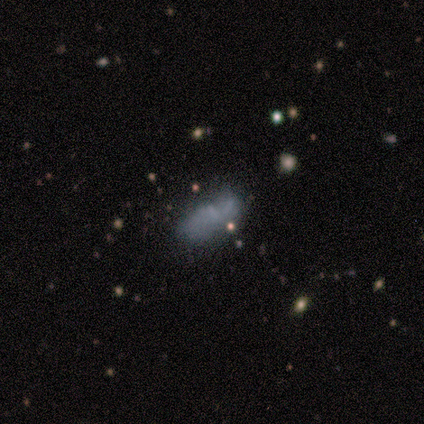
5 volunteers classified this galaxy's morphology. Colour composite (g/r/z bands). It shows a featured or disk galaxy (40%, tied with star or artifact) with a strong bar (50%, tied with no), 2 (50%, tied with can't tell) loose (100%) spiral arms (100%) and a small central bulge (50%, tied with none). Merging: minor disturbance (67%).